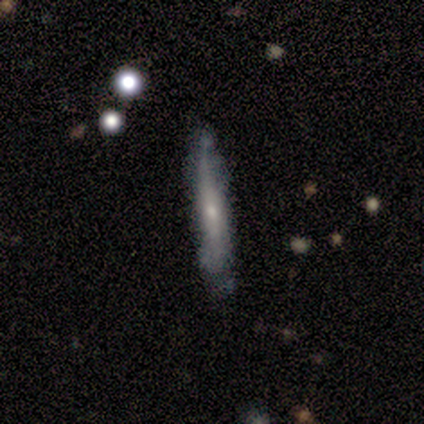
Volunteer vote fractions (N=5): This appears to be a smooth galaxy with no disk features (80%) that is cigar-shaped (100%). Merging: none (100%).